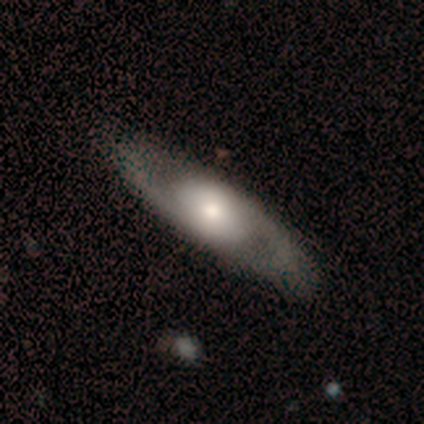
Smooth or featured: featured or disk — 79% (smooth — 14%)
Edge-on disk: no — 91% (yes — 9%)
Bar: no — 80% (weak — 20%)
Spiral arms: yes — 90% (no — 10%)
Spiral winding: medium — 44% (loose — 33%)
Spiral arm count: 2 — 100%
Bulge size: moderate — 40% (large — 30%)
Merging: none — 100%